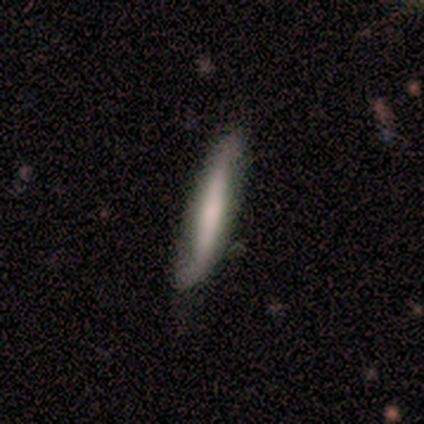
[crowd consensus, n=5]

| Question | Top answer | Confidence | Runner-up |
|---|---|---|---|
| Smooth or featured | smooth | 80% | featured or disk (20%) |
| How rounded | cigar-shaped | 100% | — |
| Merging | none | 80% | minor disturbance (20%) |